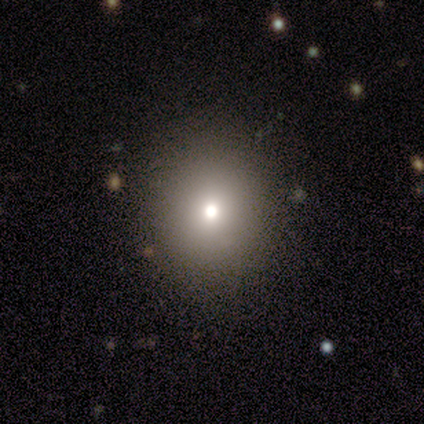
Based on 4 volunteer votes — smooth_or_featured: star or artifact (p=0.50) [alt: smooth p=0.25]